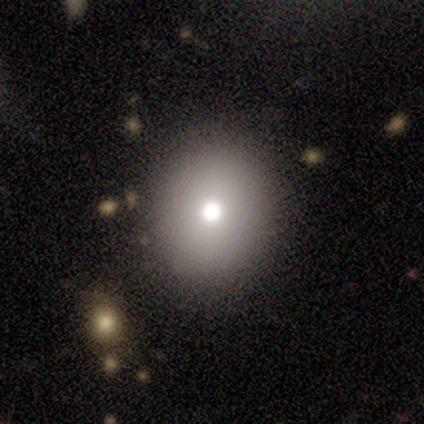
Smooth or featured? 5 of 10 (50%) said star or artifact.